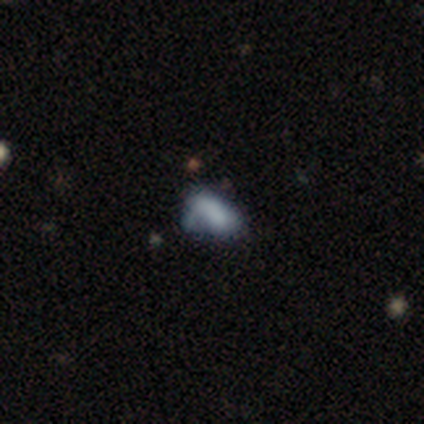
This is likely a smooth galaxy (60%). How rounded: clearly in between (100%). Merging: likely minor disturbance (67%).